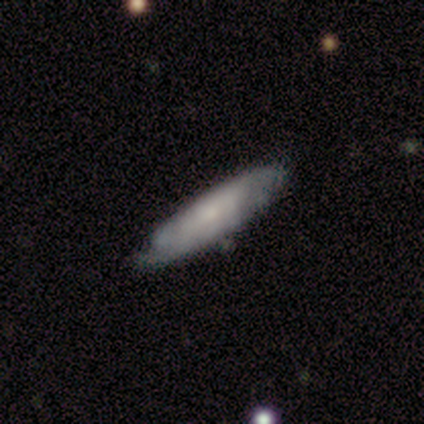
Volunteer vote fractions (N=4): Volunteers were most divided on "smooth or featured" (2-way tie): smooth: 50%, featured or disk: 50%, star or artifact: 0%. More confident: how rounded — in between (100%); merging — none (75%).